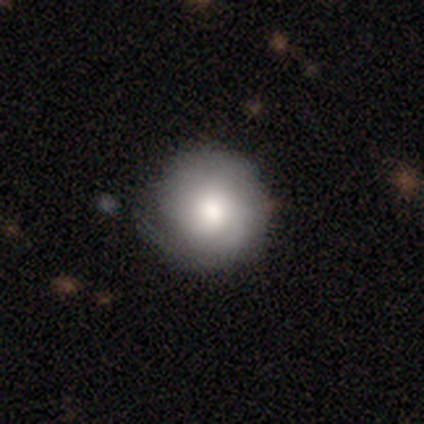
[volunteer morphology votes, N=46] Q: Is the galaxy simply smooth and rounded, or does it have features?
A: smooth — 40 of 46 (87%).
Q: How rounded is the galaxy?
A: round — 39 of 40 (98%).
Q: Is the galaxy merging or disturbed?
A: none — 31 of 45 (69%).